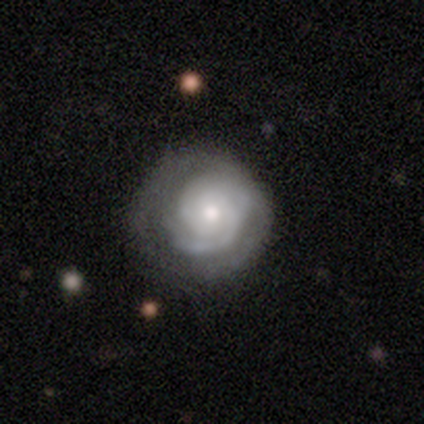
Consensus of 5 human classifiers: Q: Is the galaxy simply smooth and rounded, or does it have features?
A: featured or disk — 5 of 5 (100%).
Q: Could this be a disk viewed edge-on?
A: no — 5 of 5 (100%).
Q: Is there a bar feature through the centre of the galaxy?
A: no — 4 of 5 (80%).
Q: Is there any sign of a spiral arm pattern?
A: yes — 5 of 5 (100%).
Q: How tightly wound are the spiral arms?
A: tight — 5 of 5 (100%).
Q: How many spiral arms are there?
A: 2 — 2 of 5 (40%, tied with can't tell).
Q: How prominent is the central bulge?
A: moderate — 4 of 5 (80%).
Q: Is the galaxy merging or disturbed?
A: none — 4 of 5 (80%).